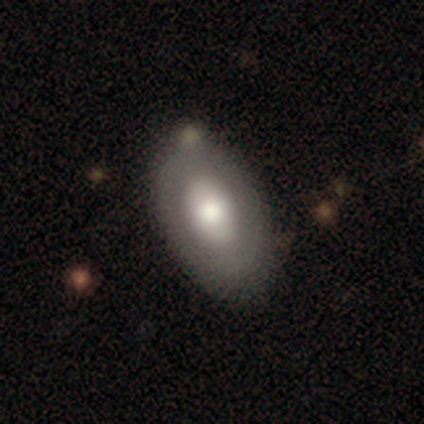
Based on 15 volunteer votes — Smooth or featured?
  - featured or disk: 53% *
  - smooth: 47%
  - star or artifact: 0%
Edge-on disk?
  - no: 100% *
  - yes: 0%
Bar?
  - no: 100% *
  - strong: 0%
  - weak: 0%
Spiral arms?
  - no: 88% *
  - yes: 12%
Bulge size?
  - large: 50% * (tied)
  - moderate: 50% * (tied)
  - dominant: 0%
  - small: 0%
  - none: 0%
Merging?
  - none: 93% *
  - minor disturbance: 7%
  - major disturbance: 0%
  - merger: 0%